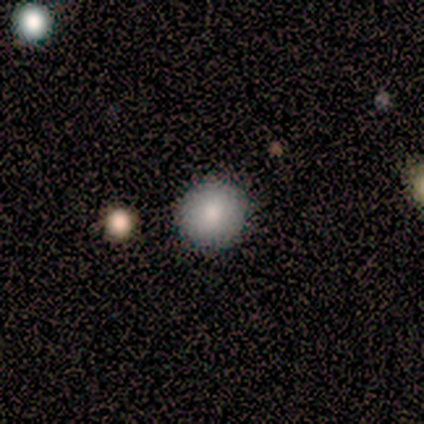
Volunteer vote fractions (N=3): smooth_or_featured: smooth (p=0.67) [alt: star or artifact p=0.33]
how_rounded: round (p=1.00)
merging: none (p=1.00)